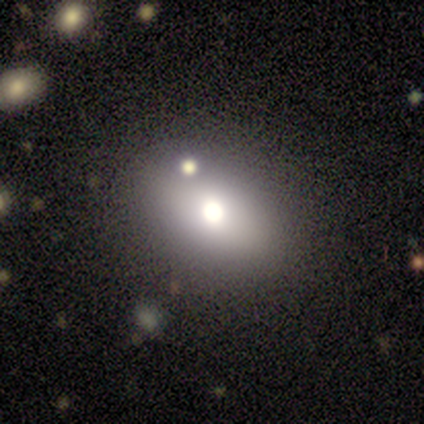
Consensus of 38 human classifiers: Smooth or featured? 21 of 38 (55%) said smooth. How rounded? 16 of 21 (76%) said in between. Merging? 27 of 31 (87%) said none.